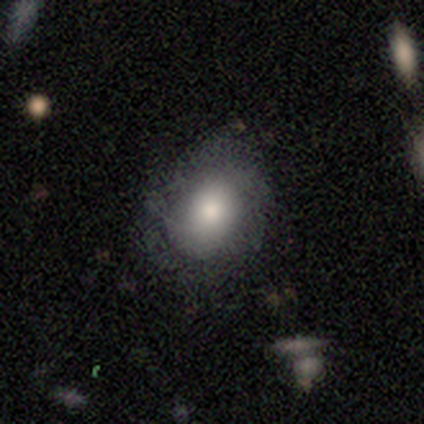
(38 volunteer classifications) Smooth or featured? smooth (74%)
How rounded? round (64%)
Merging? none (80%)